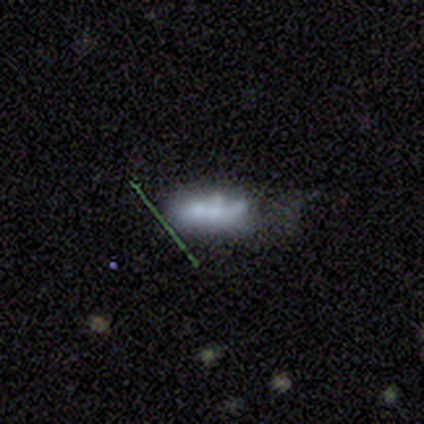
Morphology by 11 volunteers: smooth_or_featured: smooth (p=0.64) [alt: featured or disk p=0.36]
how_rounded: in between (p=0.57) [alt: cigar-shaped p=0.43]
merging: none (p=0.36) [tied with: minor disturbance p=0.36]